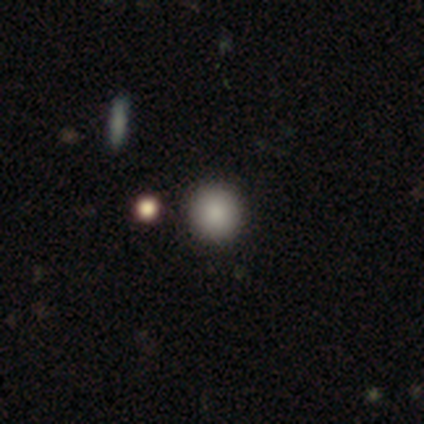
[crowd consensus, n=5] smooth_or_featured: smooth (p=1.00)
how_rounded: round (p=1.00)
merging: none (p=0.80) [alt: merger p=0.20]